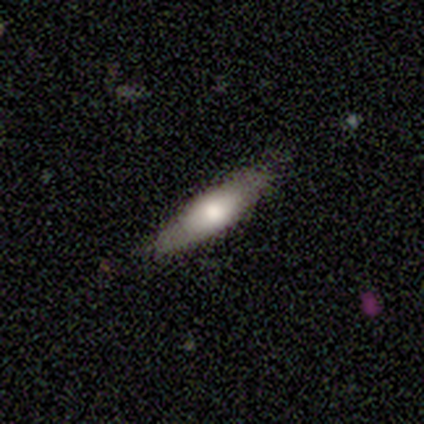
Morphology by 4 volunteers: smooth-or-featured: featured or disk: 75% | smooth: 25% | star or artifact: 0%
  disk-edge-on: yes: 100% | no: 0%
    edge-on-bulge: rounded: 100% | boxy: 0% | none: 0%
  merging: none: 75% | minor disturbance: 25% | major disturbance: 0% | merger: 0%